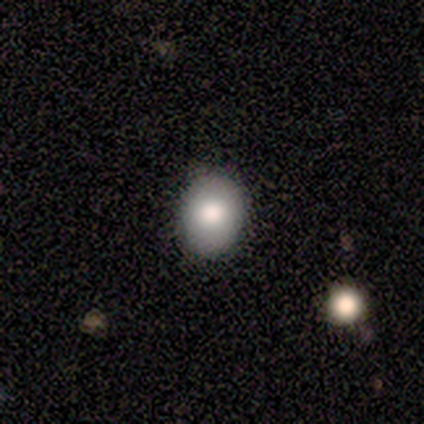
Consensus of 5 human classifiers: smooth-or-featured: smooth: 60% | featured or disk: 20% | star or artifact: 20%
  how-rounded: in between: 67% | round: 33% | cigar-shaped: 0%
  merging: none: 75% | minor disturbance: 25% | major disturbance: 0% | merger: 0%